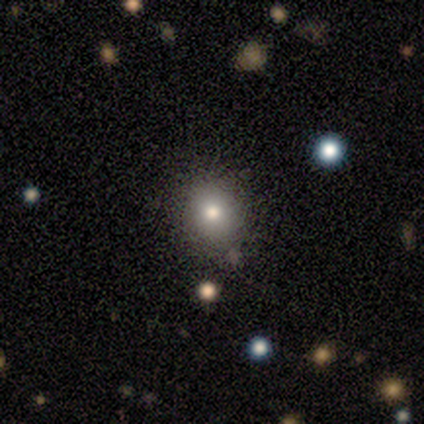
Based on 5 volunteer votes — Smooth or featured?
  - smooth: 60% *
  - star or artifact: 40%
  - featured or disk: 0%
How rounded?
  - round: 100% *
  - in between: 0%
  - cigar-shaped: 0%
Merging?
  - none: 67% *
  - minor disturbance: 33%
  - major disturbance: 0%
  - merger: 0%